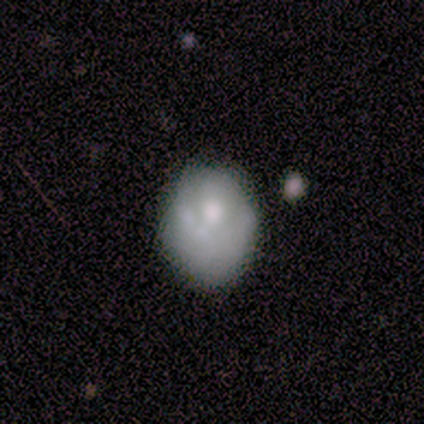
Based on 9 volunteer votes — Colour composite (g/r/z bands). It shows a star or artifact, not a galaxy (44%).